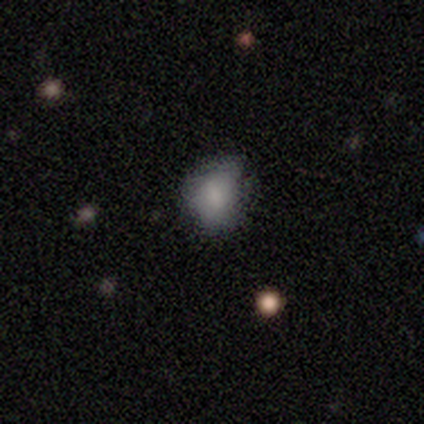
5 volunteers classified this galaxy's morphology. This appears to be a smooth galaxy with no disk features (80%) that is round (75%). Merging: none (60%).